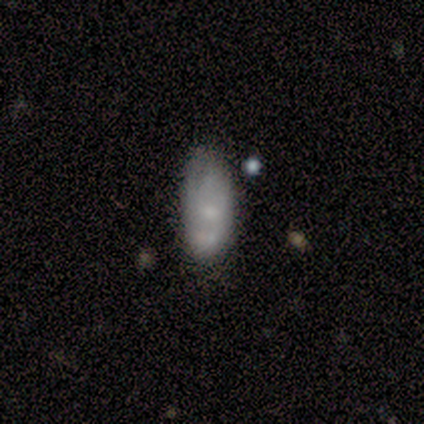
Overall: smooth (60%; featured or disk 20%). How rounded: in between (100%). Merging: minor disturbance (75%).